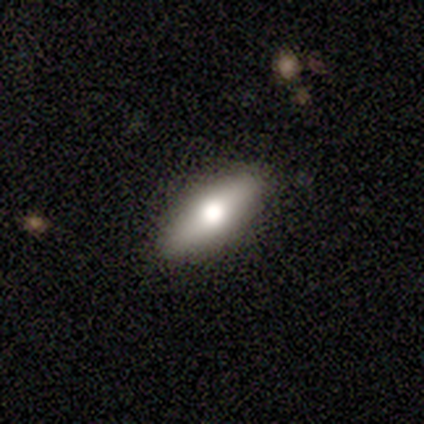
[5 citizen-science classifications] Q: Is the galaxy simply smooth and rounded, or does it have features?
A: smooth — 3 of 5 (60%).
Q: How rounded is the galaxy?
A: in between — 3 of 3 (100%).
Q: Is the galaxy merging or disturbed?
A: none — 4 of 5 (80%).